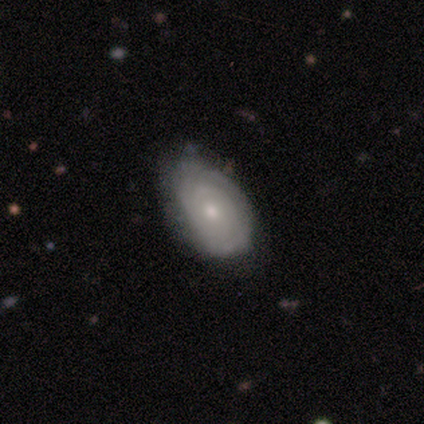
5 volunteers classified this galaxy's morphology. Smooth or featured? featured or disk (60%)
Edge-on disk? no (100%)
Bar? no (67%)
Spiral arms? yes (100%)
Spiral winding? tight (67%)
Spiral arm count? can't tell (67%)
Bulge size? small (67%)
Merging? none (40%, tied with minor disturbance)